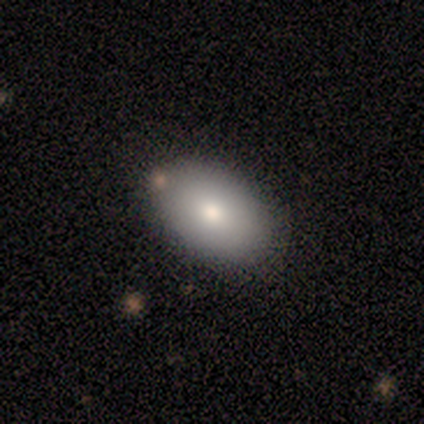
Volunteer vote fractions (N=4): A smooth galaxy with no disk features (50%, tied with featured or disk) that is in between round and cigar-shaped (100%).

Vote fractions:
- Smooth or featured? smooth: 50% (tied) / featured or disk: 50% (tied) / star or artifact: 0%
- How rounded? in between: 100% / round: 0% / cigar-shaped: 0%
- Merging? none: 75% / minor disturbance: 25% / major disturbance: 0% / merger: 0%